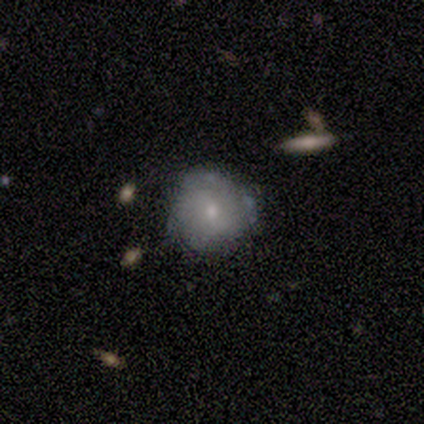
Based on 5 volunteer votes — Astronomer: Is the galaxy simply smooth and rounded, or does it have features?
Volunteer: featured or disk — 60% (runner-up: smooth, 40%).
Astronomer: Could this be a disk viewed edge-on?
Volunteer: yes — 67%.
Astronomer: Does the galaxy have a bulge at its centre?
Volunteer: rounded — 100%.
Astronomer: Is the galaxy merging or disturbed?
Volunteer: none — 80%.